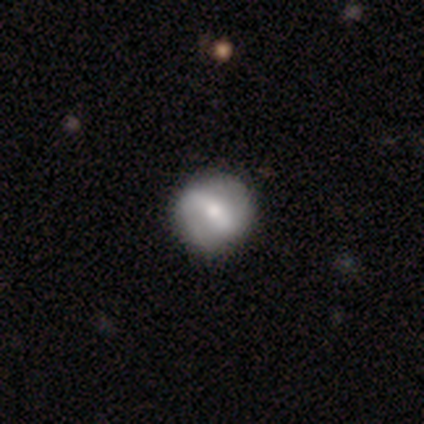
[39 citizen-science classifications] Overall: featured or disk (67%; smooth 31%). Edge-on disk: no (100%). Bar: strong (58%; weak 31%). Spiral arms: yes (77%). Spiral arm count: 2 (75%). Spiral winding: medium (45%; loose 40%). Bulge size: moderate (69%). Merging: none (66%).